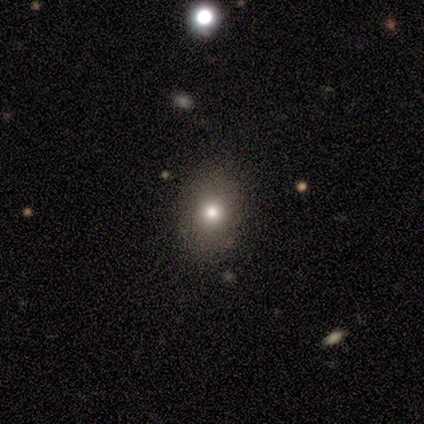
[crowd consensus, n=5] Smooth or featured? smooth (100%)
How rounded? in between (80%)
Merging? none (60%)